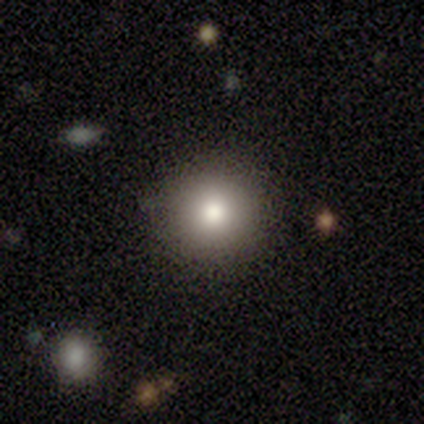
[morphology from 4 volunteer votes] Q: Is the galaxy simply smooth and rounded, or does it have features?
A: smooth — 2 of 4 (50%, tied with featured or disk).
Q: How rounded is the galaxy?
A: round — 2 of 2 (100%).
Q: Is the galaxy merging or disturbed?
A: none — 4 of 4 (100%).